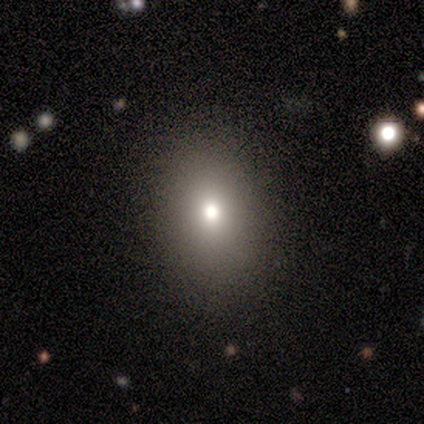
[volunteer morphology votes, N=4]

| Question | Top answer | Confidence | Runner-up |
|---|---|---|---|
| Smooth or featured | smooth | 75% | star or artifact (25%) |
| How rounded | round | 67% | in between (33%) |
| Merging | none | 100% | — |